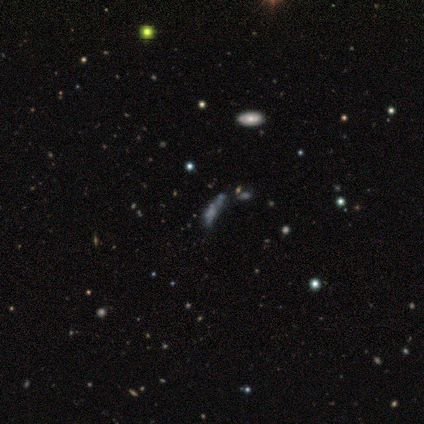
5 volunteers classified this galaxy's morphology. smooth_or_featured: star or artifact (p=0.60) [alt: featured or disk p=0.40]